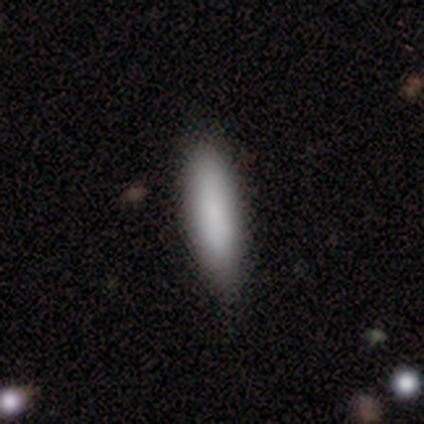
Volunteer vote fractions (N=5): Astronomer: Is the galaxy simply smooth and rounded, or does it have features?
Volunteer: smooth — 100%.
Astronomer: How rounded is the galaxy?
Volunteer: cigar-shaped — 60% (runner-up: in between, 40%).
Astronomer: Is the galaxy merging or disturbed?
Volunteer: none — 100%.